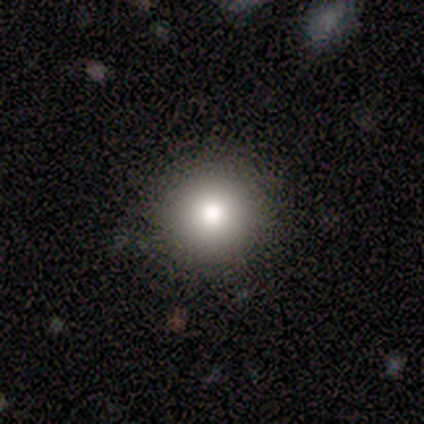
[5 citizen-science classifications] Morphology: type=smooth (60%); roundness=round (100%); merging=none (100%).